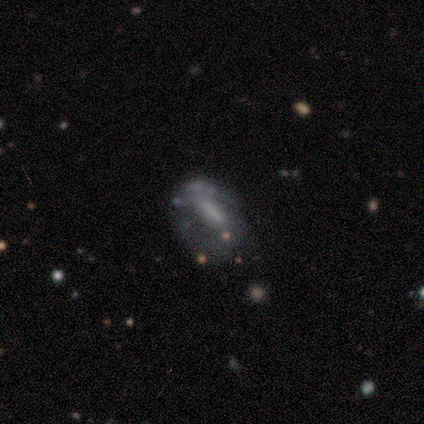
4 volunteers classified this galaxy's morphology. Smooth or featured? 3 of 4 (75%) said featured or disk. Edge-on disk? 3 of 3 (100%) said no. Bar? 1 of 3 (33%, tied with weak and no) said strong. Spiral arms? 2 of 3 (67%) said no. Bulge size? 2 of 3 (67%) said none. Merging? 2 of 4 (50%, tied with major disturbance) said none.